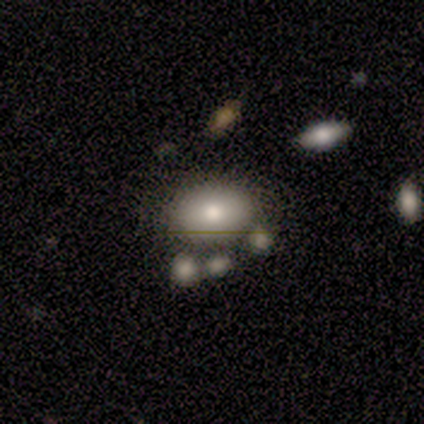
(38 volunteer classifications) smooth 68%, featured or disk 26%, star or artifact 5%. Down the decision tree: how rounded — in between (77%); merging — none (58%).